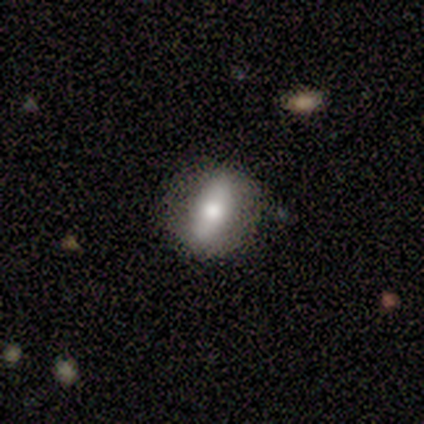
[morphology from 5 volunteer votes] Volunteers were most divided on "how rounded" (3-way tie): round: 33%, in between: 33%, cigar-shaped: 33%. More confident: smooth or featured — smooth (60%); merging — minor disturbance (50%).